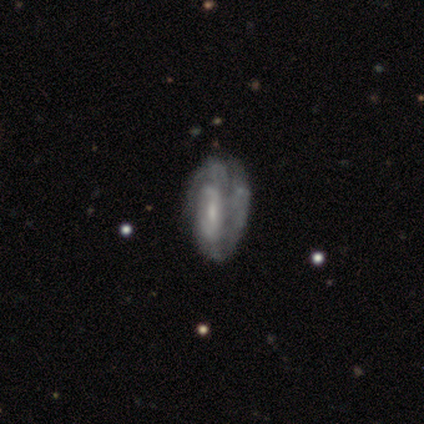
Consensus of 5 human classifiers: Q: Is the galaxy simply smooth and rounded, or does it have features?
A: featured or disk — 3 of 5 (60%).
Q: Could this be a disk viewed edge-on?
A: no — 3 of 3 (100%).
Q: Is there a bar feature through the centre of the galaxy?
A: weak — 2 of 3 (67%).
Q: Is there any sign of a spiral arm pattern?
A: yes — 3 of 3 (100%).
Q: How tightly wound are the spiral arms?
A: tight — 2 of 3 (67%).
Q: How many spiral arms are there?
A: can't tell — 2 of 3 (67%).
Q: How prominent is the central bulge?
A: small — 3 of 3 (100%).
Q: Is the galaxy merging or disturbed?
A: none — 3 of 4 (75%).